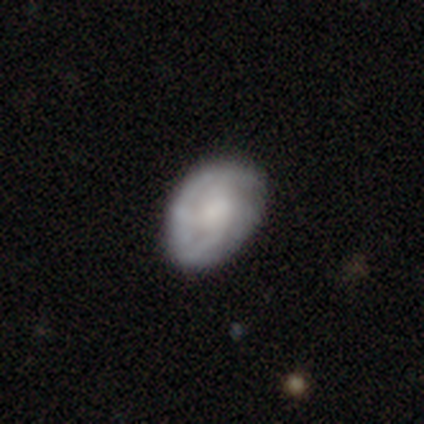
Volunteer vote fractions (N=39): featured or disk 59%, smooth 38%, star or artifact 3%. Down the decision tree: edge-on disk — no (96%); bar — no (77%); spiral arms — yes (86%); spiral arm count — can't tell (53%); spiral winding — tight (53%); bulge size — none (50%); merging — none (71%).